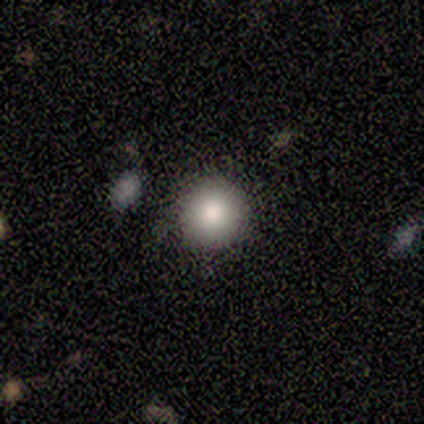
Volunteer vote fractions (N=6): smooth_or_featured: smooth (p=1.00)
how_rounded: round (p=1.00)
merging: none (p=0.83) [alt: merger p=0.17]